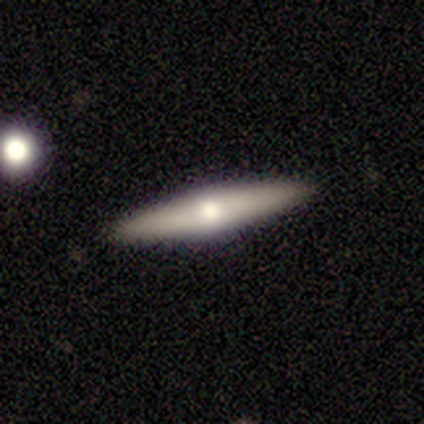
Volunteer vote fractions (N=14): smooth-or-featured: featured or disk: 64% | smooth: 36% | star or artifact: 0%
  disk-edge-on: yes: 89% | no: 11%
    edge-on-bulge: rounded: 88% | none: 12% | boxy: 0%
  merging: none: 93% | minor disturbance: 7% | major disturbance: 0% | merger: 0%